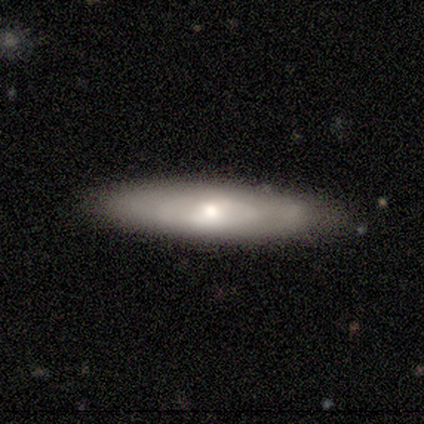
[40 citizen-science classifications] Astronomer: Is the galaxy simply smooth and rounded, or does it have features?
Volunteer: smooth — 60%.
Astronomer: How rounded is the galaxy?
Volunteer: cigar-shaped — 83%.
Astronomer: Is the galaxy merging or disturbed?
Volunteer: none — 92%.